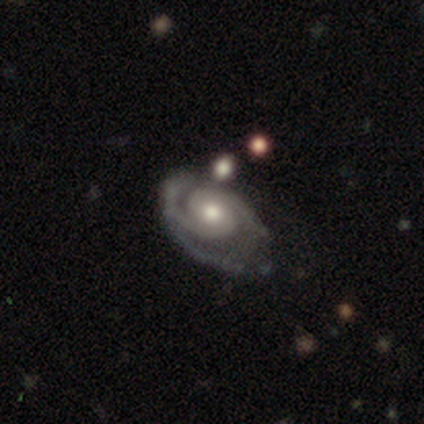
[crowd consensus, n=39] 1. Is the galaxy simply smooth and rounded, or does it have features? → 90% featured or disk, 5% smooth, 5% star or artifact.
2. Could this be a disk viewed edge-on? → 97% no, 3% yes.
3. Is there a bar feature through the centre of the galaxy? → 82% no, 18% weak, 0% strong.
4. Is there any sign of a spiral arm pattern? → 94% yes, 6% no.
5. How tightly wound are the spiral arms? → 56% tight, 41% medium, 3% loose.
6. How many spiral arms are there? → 91% 2, 6% 3, 3% 1, 0% 4, 0% more than 4, 0% can't tell.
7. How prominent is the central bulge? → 91% moderate, 6% large, 3% small, 0% dominant, 0% none.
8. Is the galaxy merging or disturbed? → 46% none, 27% minor disturbance, 22% major disturbance, 5% merger.